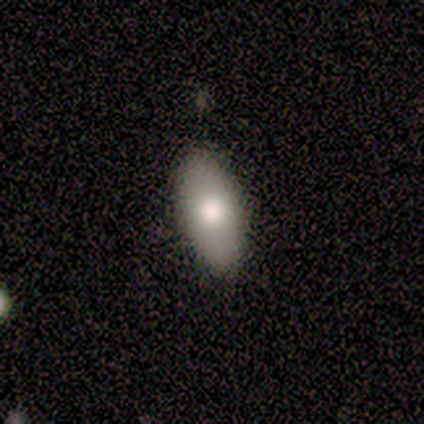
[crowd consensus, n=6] Smooth or featured? 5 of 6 (83%) said smooth. How rounded? 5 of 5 (100%) said in between. Merging? 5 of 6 (83%) said none.